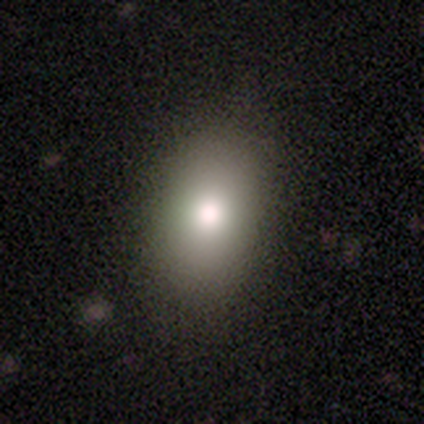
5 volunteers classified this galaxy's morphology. Smooth or featured? 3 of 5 (60%) said smooth. How rounded? 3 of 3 (100%) said in between. Merging? 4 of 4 (100%) said none.